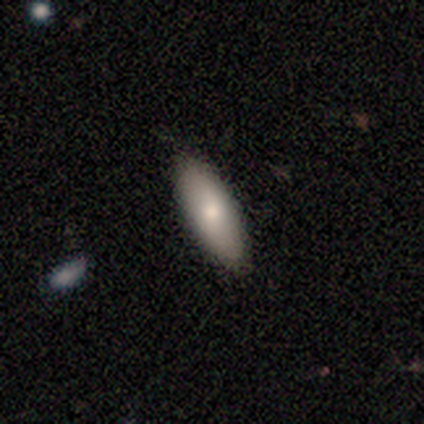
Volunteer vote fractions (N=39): Q: Smooth or featured?
A: smooth (79%); runner-up: featured or disk (15%)
Q: How rounded?
A: in between (81%); runner-up: cigar-shaped (16%)
Q: Merging?
A: none (97%); runner-up: minor disturbance (3%)